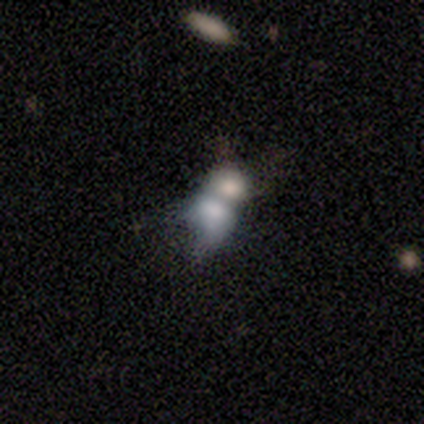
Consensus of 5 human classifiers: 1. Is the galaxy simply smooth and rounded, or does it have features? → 40% featured or disk (tied), 40% star or artifact (tied), 20% smooth.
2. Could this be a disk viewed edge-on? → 100% no, 0% yes.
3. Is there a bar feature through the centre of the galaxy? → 50% weak (tied), 50% no (tied), 0% strong.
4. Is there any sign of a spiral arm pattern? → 100% no, 0% yes.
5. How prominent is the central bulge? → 50% large (tied), 50% small (tied), 0% dominant, 0% moderate, 0% none.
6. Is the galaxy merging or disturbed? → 100% merger, 0% none, 0% minor disturbance, 0% major disturbance.